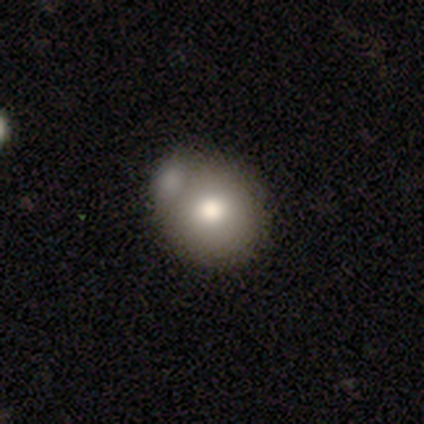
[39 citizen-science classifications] Smooth or featured: smooth — 77% (featured or disk — 13%)
How rounded: round — 93% (in between — 7%)
Merging: merger — 46% (none — 40%)